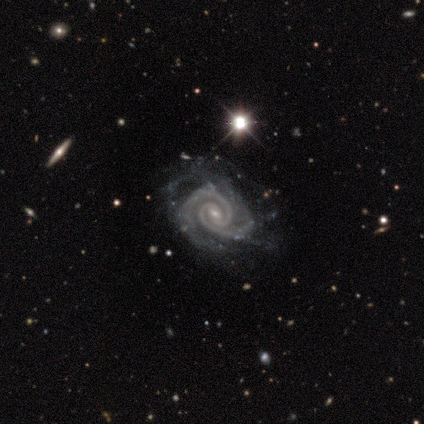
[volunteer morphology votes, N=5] Smooth or featured? featured or disk (80%)
Edge-on disk? no (100%)
Bar? weak (50%, tied with no)
Spiral arms? yes (100%)
Spiral winding? tight (50%, tied with medium)
Spiral arm count? 2 (50%, tied with 3)
Bulge size? small (100%)
Merging? none (75%)